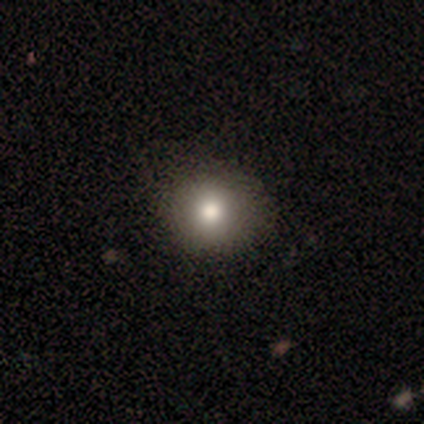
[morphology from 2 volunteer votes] A smooth galaxy with no disk features (100%) that is round (50%, tied with in between).

Vote fractions:
- Smooth or featured? smooth: 100% / featured or disk: 0% / star or artifact: 0%
- How rounded? round: 50% (tied) / in between: 50% (tied) / cigar-shaped: 0%
- Merging? none: 100% / minor disturbance: 0% / major disturbance: 0% / merger: 0%